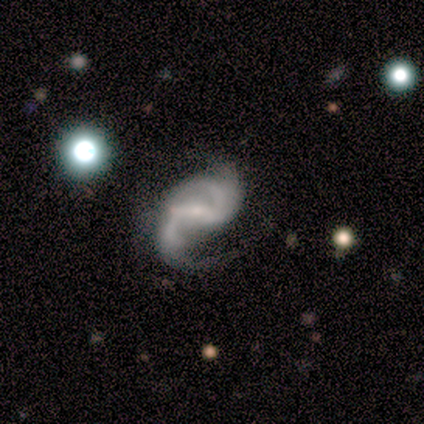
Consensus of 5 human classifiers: Volunteers were most divided on "bulge size" (2-way tie): small: 40%, none: 40%, dominant: 20%, large: 0%, moderate: 0%. More confident: smooth or featured — featured or disk (100%); edge-on disk — no (100%); spiral arms — yes (100%); spiral winding — loose (80%); spiral arm count — 2 (80%); bar — weak (60%); merging — none (60%).